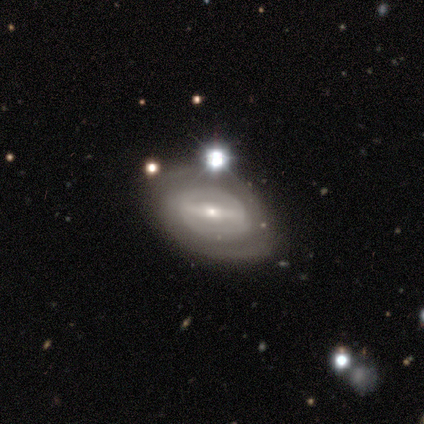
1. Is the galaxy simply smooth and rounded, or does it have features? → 60% featured or disk, 20% smooth, 20% star or artifact.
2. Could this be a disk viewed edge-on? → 67% no, 33% yes.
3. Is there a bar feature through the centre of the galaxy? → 50% strong (tied), 50% weak (tied), 0% no.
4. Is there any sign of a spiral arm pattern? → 50% yes (tied), 50% no (tied).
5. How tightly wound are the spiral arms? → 100% tight, 0% medium, 0% loose.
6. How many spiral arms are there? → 100% 2, 0% 1, 0% 3, 0% 4, 0% more than 4, 0% can't tell.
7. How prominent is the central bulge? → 50% moderate (tied), 50% small (tied), 0% dominant, 0% large, 0% none.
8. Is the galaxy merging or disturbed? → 50% merger, 25% none, 25% major disturbance, 0% minor disturbance.